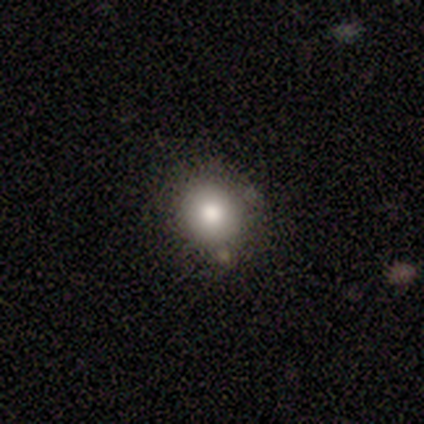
A smooth galaxy with no disk features (100%) that is round (80%). Merging: none (60%).